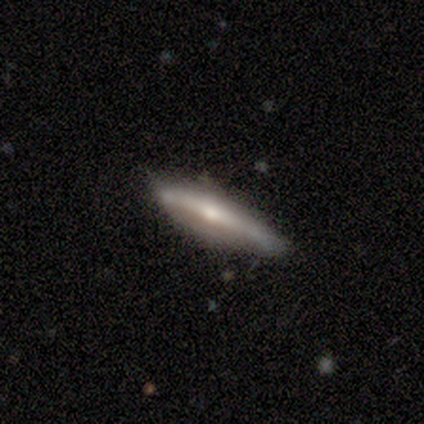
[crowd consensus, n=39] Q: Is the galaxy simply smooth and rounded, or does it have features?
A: featured or disk — 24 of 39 (62%).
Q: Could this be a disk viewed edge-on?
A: yes — 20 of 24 (83%).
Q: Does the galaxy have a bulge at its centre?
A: rounded — 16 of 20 (80%).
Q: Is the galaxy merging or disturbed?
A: none — 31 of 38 (82%).